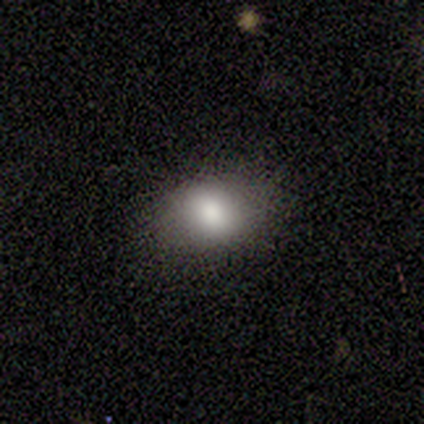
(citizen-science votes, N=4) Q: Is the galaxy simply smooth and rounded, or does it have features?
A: smooth — 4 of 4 (100%).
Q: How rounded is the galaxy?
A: round — 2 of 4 (50%).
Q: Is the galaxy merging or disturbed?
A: none — 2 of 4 (50%, tied with minor disturbance).